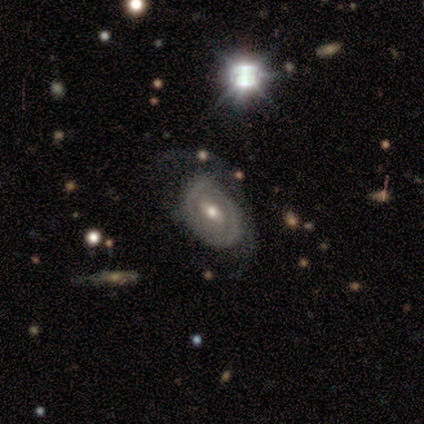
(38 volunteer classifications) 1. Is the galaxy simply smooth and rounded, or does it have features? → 74% featured or disk, 21% smooth, 5% star or artifact.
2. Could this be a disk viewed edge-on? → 96% no, 4% yes.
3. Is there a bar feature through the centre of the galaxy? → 48% weak, 30% no, 22% strong.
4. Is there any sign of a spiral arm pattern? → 56% yes, 44% no.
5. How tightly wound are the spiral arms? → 53% tight, 27% medium, 20% loose.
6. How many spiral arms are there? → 73% 2, 27% can't tell, 0% 1, 0% 3, 0% 4, 0% more than 4.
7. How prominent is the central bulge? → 59% moderate, 33% small, 4% large, 4% none, 0% dominant.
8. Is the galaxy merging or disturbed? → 47% none, 25% minor disturbance, 22% major disturbance, 6% merger.